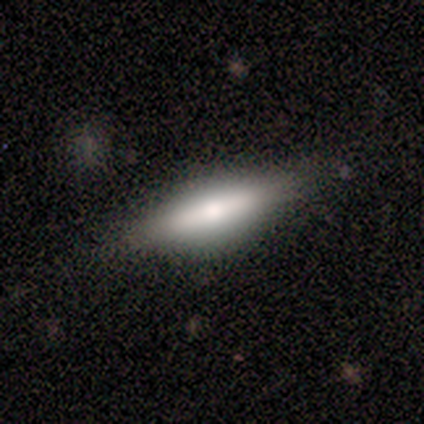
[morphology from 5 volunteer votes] Overall: featured or disk (80%). Edge-on disk: yes (100%). Edge-on bulge: rounded (75%). Merging: none (80%).